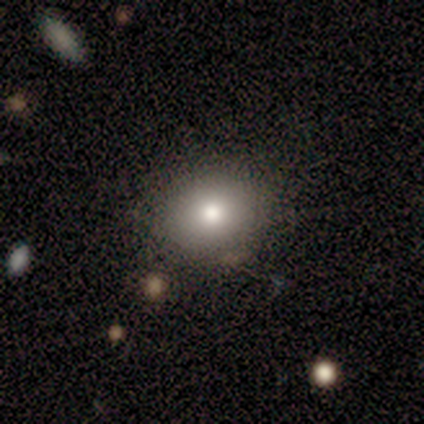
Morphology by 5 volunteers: A smooth galaxy with no disk features (100%) that is round (60%).

Vote fractions:
- Smooth or featured? smooth: 100% / featured or disk: 0% / star or artifact: 0%
- How rounded? round: 60% / in between: 40% / cigar-shaped: 0%
- Merging? none: 80% / merger: 20% / minor disturbance: 0% / major disturbance: 0%